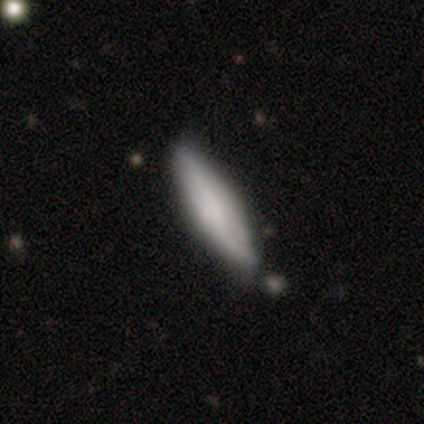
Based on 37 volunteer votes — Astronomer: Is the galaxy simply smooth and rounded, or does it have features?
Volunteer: smooth — 62%.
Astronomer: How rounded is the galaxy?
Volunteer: cigar-shaped — 65%.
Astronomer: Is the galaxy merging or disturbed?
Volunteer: none — 81%.